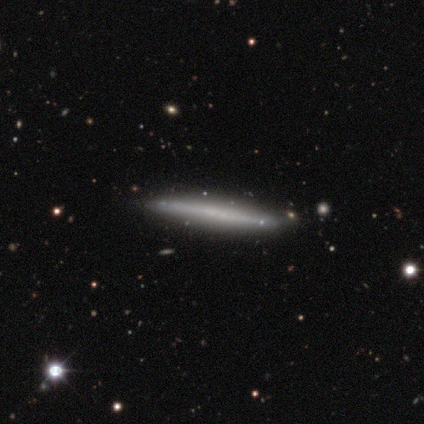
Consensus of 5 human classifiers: A featured or disk galaxy (60%) viewed edge-on (100%) with no central bulge (67%). Merging: none (100%).